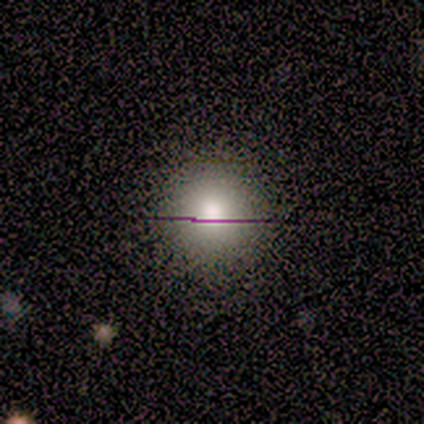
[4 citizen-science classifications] Smooth or featured? smooth (100%)
How rounded? round (75%)
Merging? none (75%)